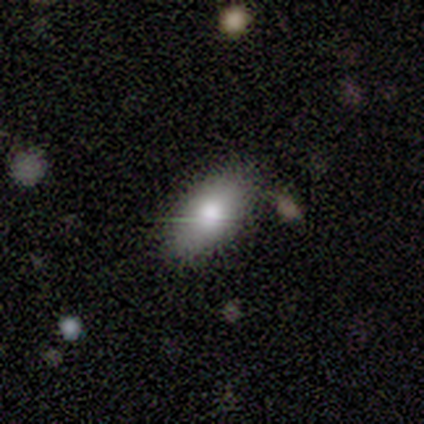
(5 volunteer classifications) Morphology: type=smooth (80%); roundness=in between (100%); merging=none (60%).